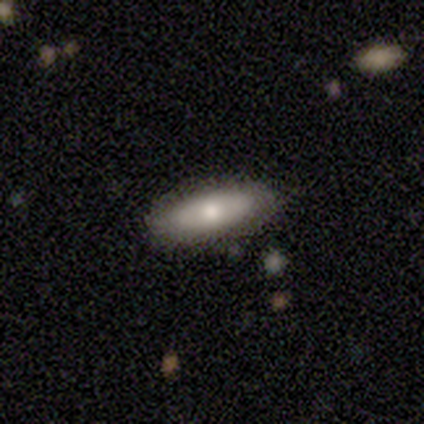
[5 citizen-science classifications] Volunteers were most divided on "smooth or featured": smooth: 60%, featured or disk: 40%, star or artifact: 0%. More confident: how rounded — in between (100%); merging — none (100%).